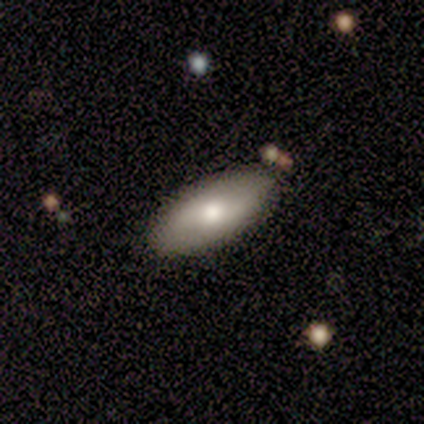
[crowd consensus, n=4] Smooth or featured: smooth — 75% (featured or disk — 25%)
How rounded: in between — 100%
Merging: none — 75% (minor disturbance — 25%)